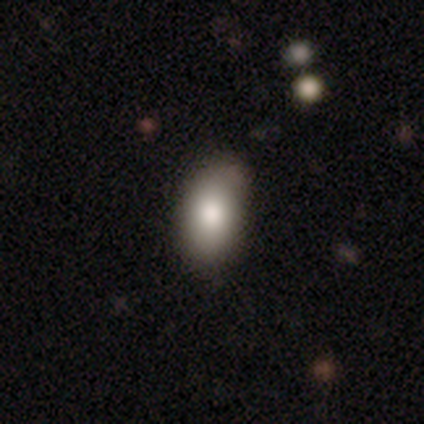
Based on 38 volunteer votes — This appears to be a smooth galaxy with no disk features (79%) that is in between round and cigar-shaped (100%). Merging: none (70%).